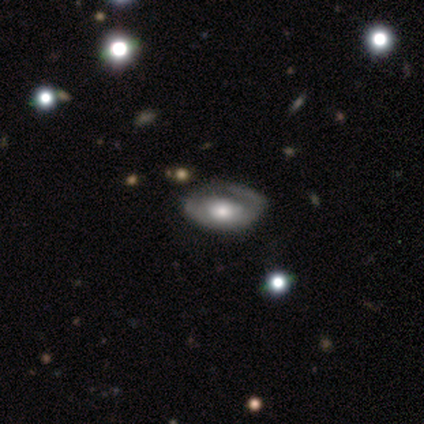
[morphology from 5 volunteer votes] A featured or disk galaxy (100%) with no bar (80%), no spiral arms (60%) and a large central bulge (40%, tied with moderate). Merging: none (80%).